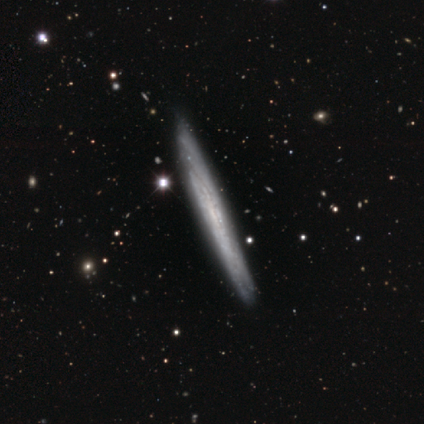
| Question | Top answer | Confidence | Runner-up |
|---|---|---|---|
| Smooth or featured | featured or disk | 100% | — |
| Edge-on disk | yes | 100% | — |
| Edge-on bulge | none | 80% | rounded (20%) |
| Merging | none | 100% | — |